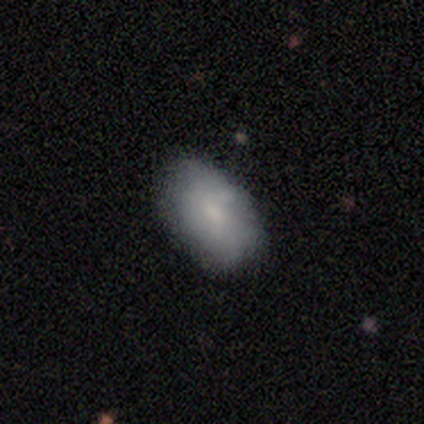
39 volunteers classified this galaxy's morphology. Overall: smooth (69%). How rounded: in between (96%). Merging: none (61%; minor disturbance 29%).